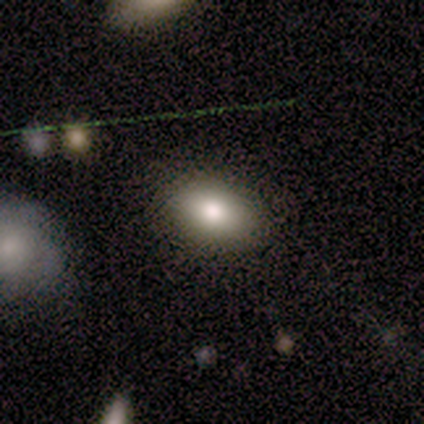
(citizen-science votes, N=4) smooth-or-featured: smooth: 100% | featured or disk: 0% | star or artifact: 0%
  how-rounded: in between: 100% | round: 0% | cigar-shaped: 0%
  merging: none: 75% | merger: 25% | minor disturbance: 0% | major disturbance: 0%